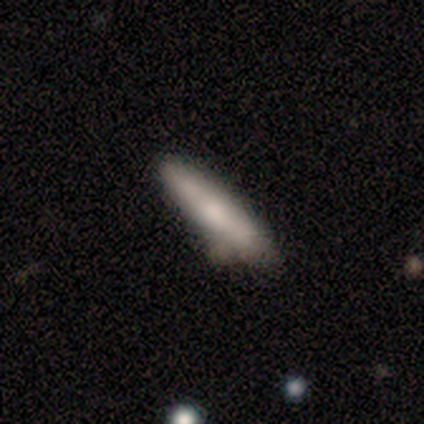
Smooth or featured? 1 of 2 (50%, tied with featured or disk) said smooth. How rounded? 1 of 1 (100%) said cigar-shaped. Merging? 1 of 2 (50%, tied with merger) said none.